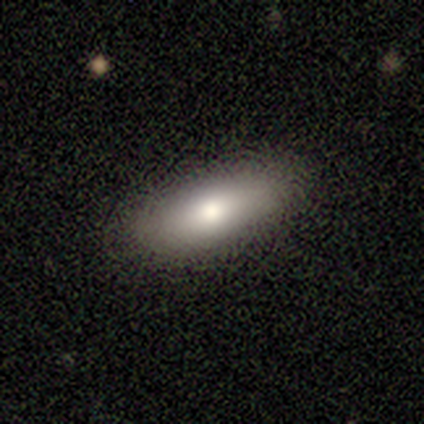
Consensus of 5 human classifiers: A smooth galaxy with no disk features (100%) that is in between round and cigar-shaped (80%). Merging: none (100%).